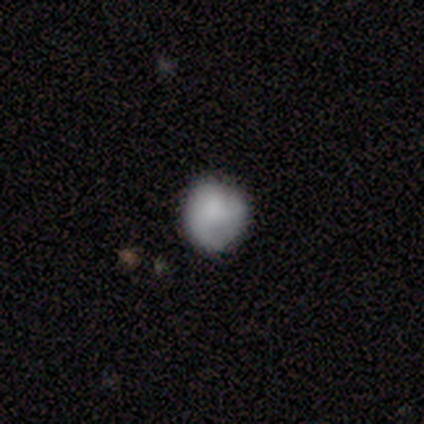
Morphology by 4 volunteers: smooth_or_featured: smooth (p=1.00)
how_rounded: round (p=1.00)
merging: none (p=1.00)